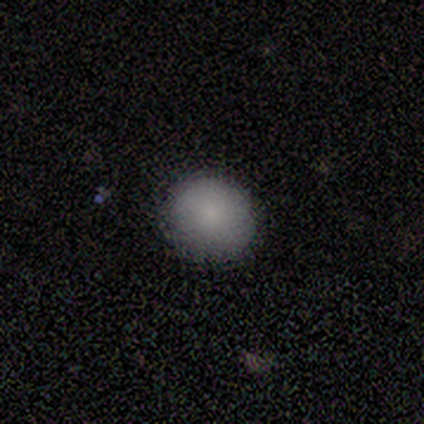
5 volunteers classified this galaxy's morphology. smooth 100%, featured or disk 0%, star or artifact 0%. Down the decision tree: how rounded — round (100%); merging — none (100%).